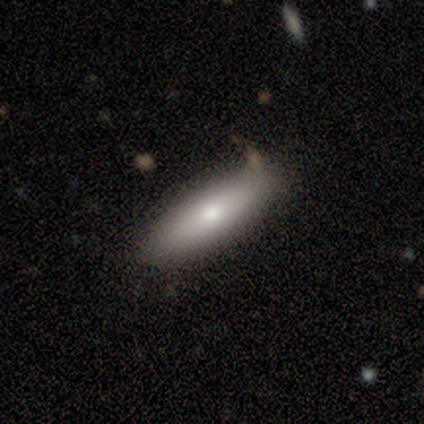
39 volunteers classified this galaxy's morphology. smooth_or_featured: smooth (p=0.72) [alt: featured or disk p=0.18]
how_rounded: in between (p=0.57) [alt: cigar-shaped p=0.43]
merging: none (p=0.74) [alt: minor disturbance p=0.17]